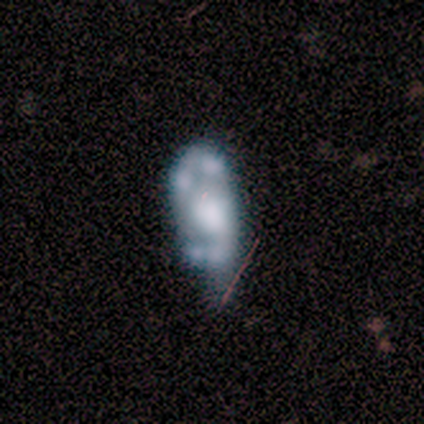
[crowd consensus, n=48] A featured or disk galaxy (75%) with no bar (75%), no spiral arms (72%) and a large central bulge (47%).

Vote fractions:
- Smooth or featured? featured or disk: 75% / star or artifact: 15% / smooth: 10%
- Edge-on disk? no: 100% / yes: 0%
- Bar? no: 75% / strong: 14% / weak: 11%
- Spiral arms? no: 72% / yes: 28%
- Bulge size? large: 47% / moderate: 28% / dominant: 14% / none: 8% / small: 3%
- Merging? none: 34% / minor disturbance: 24% / major disturbance: 22% / merger: 20%